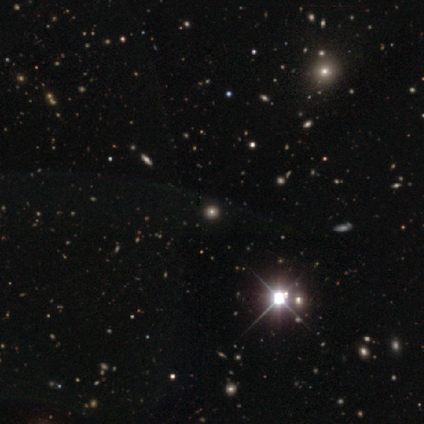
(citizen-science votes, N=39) A star or artifact, not a galaxy (64%).

Vote fractions:
- Smooth or featured? star or artifact: 64% / smooth: 31% / featured or disk: 5%